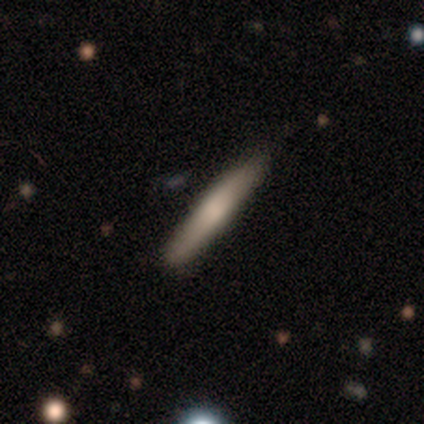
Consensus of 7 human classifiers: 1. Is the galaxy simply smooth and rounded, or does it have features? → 57% featured or disk, 43% smooth, 0% star or artifact.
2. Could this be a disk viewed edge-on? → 100% yes, 0% no.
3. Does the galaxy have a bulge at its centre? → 100% rounded, 0% boxy, 0% none.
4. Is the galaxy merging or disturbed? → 86% none, 14% minor disturbance, 0% major disturbance, 0% merger.